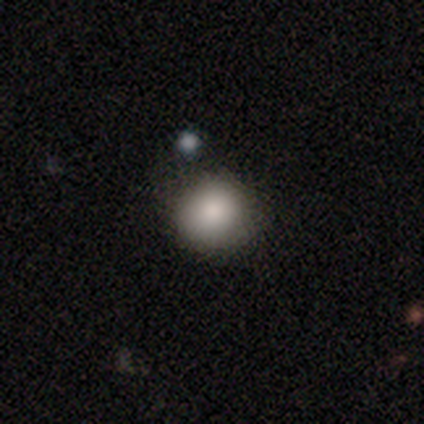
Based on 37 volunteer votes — smooth-or-featured: smooth: 86% | featured or disk: 14% | star or artifact: 0%
  how-rounded: round: 91% | in between: 9% | cigar-shaped: 0%
  merging: none: 81% | minor disturbance: 16% | merger: 3% | major disturbance: 0%